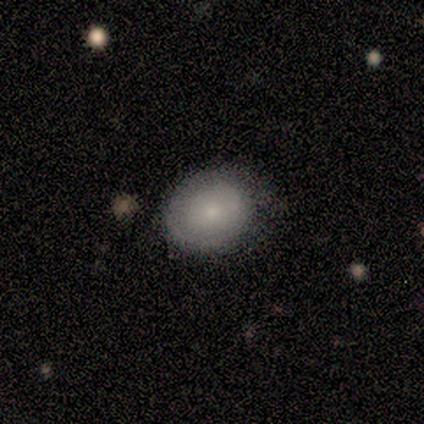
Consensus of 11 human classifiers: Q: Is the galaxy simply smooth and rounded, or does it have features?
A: smooth — 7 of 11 (64%).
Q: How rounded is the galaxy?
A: round — 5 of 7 (71%).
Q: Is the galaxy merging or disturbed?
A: none — 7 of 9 (78%).